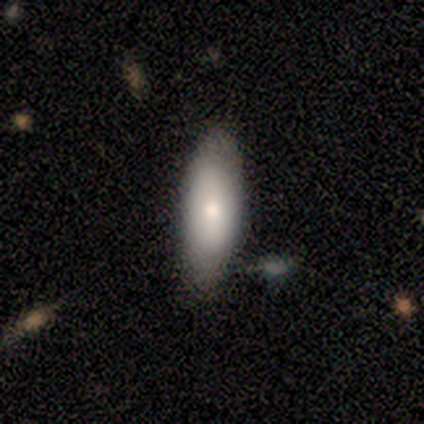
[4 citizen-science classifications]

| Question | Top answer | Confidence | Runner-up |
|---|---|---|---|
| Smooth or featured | smooth | 75% | star or artifact (25%) |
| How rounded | in between | 100% | — |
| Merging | none | 67% | minor disturbance (33%) |